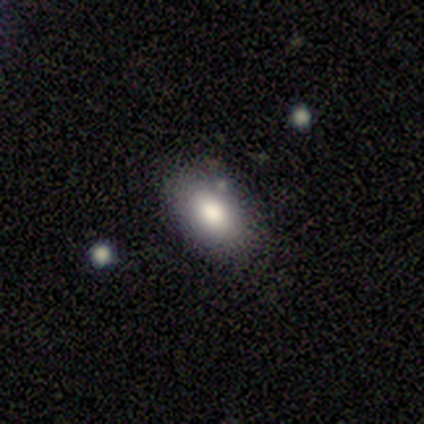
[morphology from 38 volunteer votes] Smooth or featured: smooth — 79% (star or artifact — 16%)
How rounded: in between — 93% (round — 7%)
Merging: none — 84% (minor disturbance — 16%)